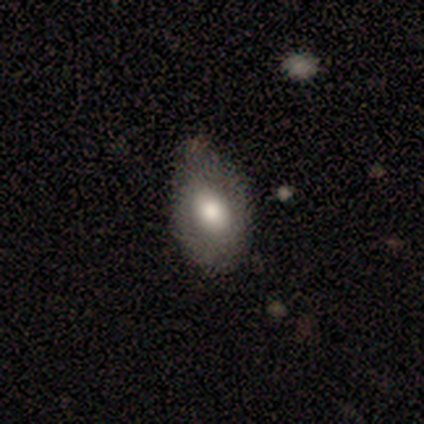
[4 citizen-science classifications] smooth-or-featured: smooth: 100% | featured or disk: 0% | star or artifact: 0%
  how-rounded: in between: 75% | round: 25% | cigar-shaped: 0%
  merging: none: 75% | minor disturbance: 25% | major disturbance: 0% | merger: 0%